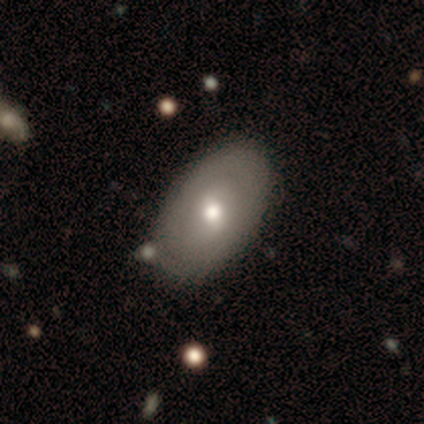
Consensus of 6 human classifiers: A smooth galaxy with no disk features (67%) that is in between round and cigar-shaped (100%).

Vote fractions:
- Smooth or featured? smooth: 67% / featured or disk: 33% / star or artifact: 0%
- How rounded? in between: 100% / round: 0% / cigar-shaped: 0%
- Merging? none: 50% / minor disturbance: 17% / major disturbance: 17% / merger: 17%